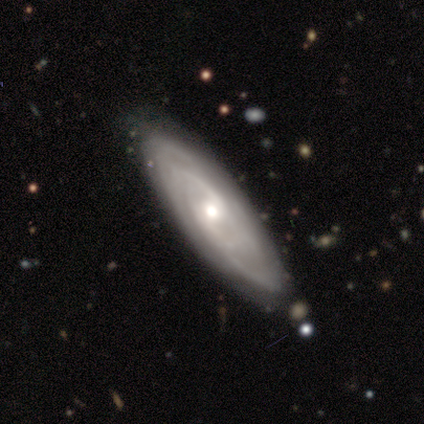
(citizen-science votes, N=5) Smooth or featured? 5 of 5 (100%) said featured or disk. Edge-on disk? 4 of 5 (80%) said no. Bar? 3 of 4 (75%) said no. Spiral arms? 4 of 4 (100%) said yes. Spiral winding? 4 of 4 (100%) said tight. Spiral arm count? 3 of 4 (75%) said can't tell. Bulge size? 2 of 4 (50%, tied with small) said moderate. Merging? 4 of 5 (80%) said none.